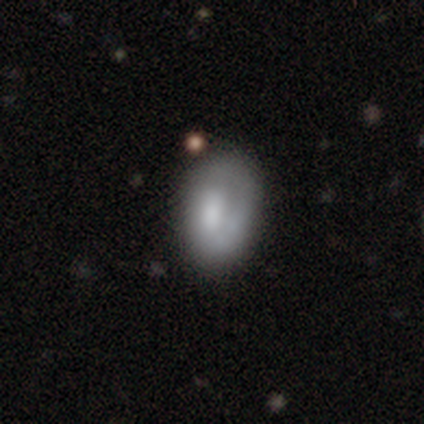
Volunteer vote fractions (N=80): smooth-or-featured: smooth: 55% | featured or disk: 41% | star or artifact: 4%
  how-rounded: in between: 89% | round: 11% | cigar-shaped: 0%
  merging: none: 34% | major disturbance: 8% | minor disturbance: 6% | merger: 6%